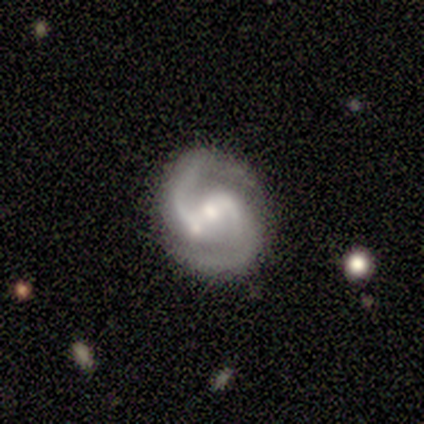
smooth-or-featured: featured or disk: 90% | star or artifact: 10% | smooth: 0%
  disk-edge-on: no: 100% | yes: 0%
    bar: strong: 44% | weak: 33% | no: 22%
    has-spiral-arms: yes: 89% | no: 11%
      spiral-winding: medium: 75% | tight: 25% | loose: 0%
      spiral-arm-count: 2: 100% | 1: 0% | 3: 0% | 4: 0% | more than 4: 0% | can't tell: 0%
    bulge-size: moderate: 44% | small: 33% | large: 11% | none: 11% | dominant: 0%
  merging: none: 89% | merger: 11% | minor disturbance: 0% | major disturbance: 0%